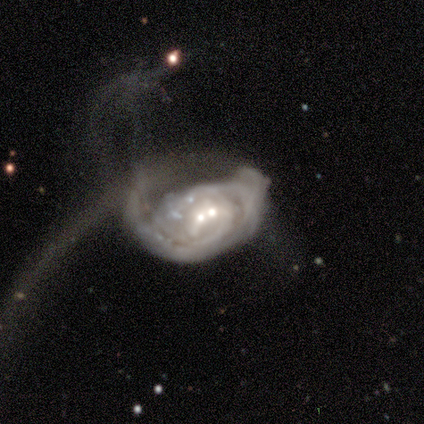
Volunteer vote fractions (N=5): Q: Smooth or featured?
A: featured or disk (100%)
Q: Edge-on disk?
A: no (100%)
Q: Bar?
A: no (80%); runner-up: weak (20%)
Q: Spiral arms?
A: yes (80%); runner-up: no (20%)
Q: Spiral winding?
A: tight (75%); runner-up: loose (25%)
Q: Spiral arm count?
A: can't tell (50%); runner-up: 1 (25%)
Q: Bulge size?
A: small (80%); runner-up: none (20%)
Q: Merging?
A: major disturbance (80%); runner-up: none (20%)